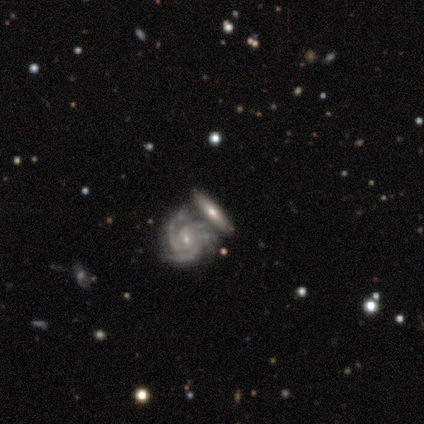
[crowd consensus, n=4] Q: Smooth or featured?
A: featured or disk (100%)
Q: Edge-on disk?
A: no (100%)
Q: Bar?
A: no (75%); runner-up: weak (25%)
Q: Spiral arms?
A: yes (100%)
Q: Spiral winding?
A: tight (50%); tied with: medium (50%)
Q: Spiral arm count?
A: 3 (75%); runner-up: 4 (25%)
Q: Bulge size?
A: small (100%)
Q: Merging?
A: none (50%); tied with: merger (50%)